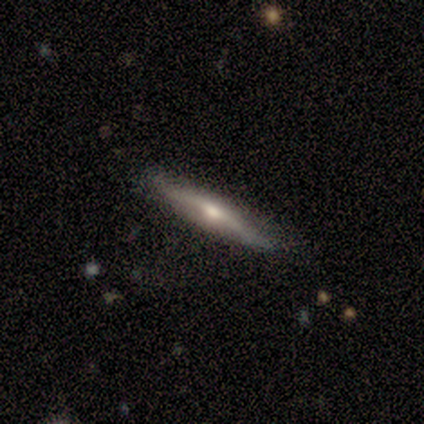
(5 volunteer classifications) smooth-or-featured: smooth: 60% | featured or disk: 40% | star or artifact: 0%
  how-rounded: cigar-shaped: 100% | round: 0% | in between: 0%
  merging: none: 80% | minor disturbance: 20% | major disturbance: 0% | merger: 0%